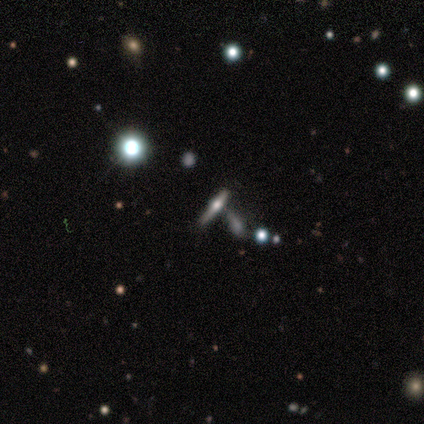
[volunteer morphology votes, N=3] type=star or artifact (67%).